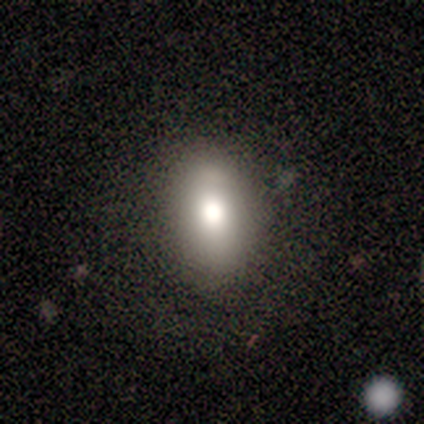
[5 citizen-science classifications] Volunteers were most divided on "smooth or featured": smooth: 80%, featured or disk: 20%, star or artifact: 0%. More confident: how rounded — in between (100%); merging — none (80%).